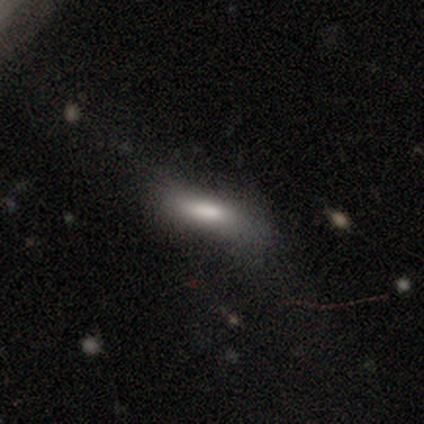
Volunteers were most divided on "merging" (2-way tie): minor disturbance: 40%, major disturbance: 40%, none: 20%, merger: 0%. More confident: smooth or featured — smooth (100%); how rounded — in between (80%).